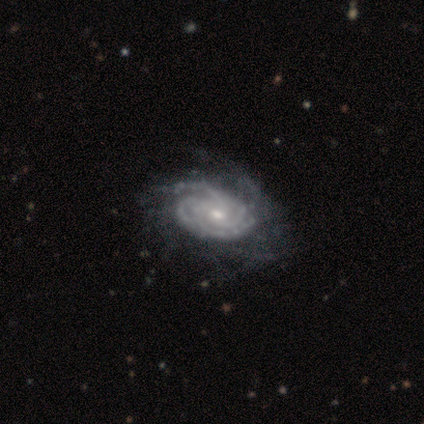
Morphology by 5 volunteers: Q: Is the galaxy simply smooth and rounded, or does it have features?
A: featured or disk — 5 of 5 (100%).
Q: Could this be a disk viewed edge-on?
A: no — 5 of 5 (100%).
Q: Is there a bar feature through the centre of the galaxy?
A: no — 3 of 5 (60%).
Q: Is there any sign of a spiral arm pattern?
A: yes — 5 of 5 (100%).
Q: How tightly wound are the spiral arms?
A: tight — 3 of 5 (60%).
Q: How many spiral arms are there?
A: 2 — 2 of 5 (40%).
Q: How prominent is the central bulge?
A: moderate — 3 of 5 (60%).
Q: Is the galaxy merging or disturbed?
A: none — 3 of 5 (60%).